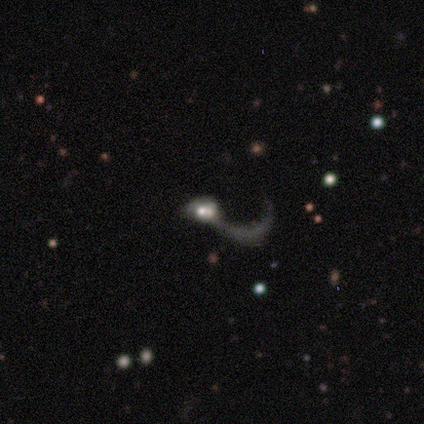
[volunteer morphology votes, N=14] Smooth or featured: featured or disk — 64% (star or artifact — 29%)
Edge-on disk: no — 100%
Bar: no — 78% (weak — 22%)
Spiral arms: yes — 78% (no — 22%)
Spiral winding: loose — 86% (medium — 14%)
Spiral arm count: 1 — 71% (2 — 29%)
Bulge size: moderate — 67% (small — 33%)
Merging: none — 30% (tied with major disturbance — 30%; merger — 30%)